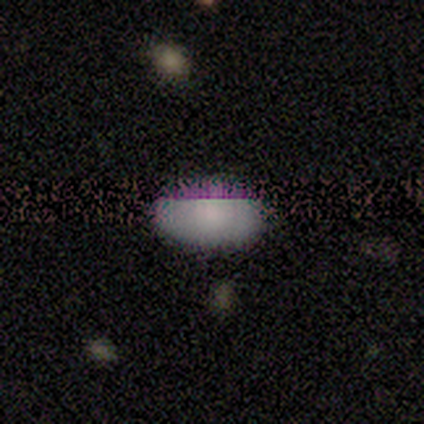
Smooth or featured?
  - smooth: 64% *
  - star or artifact: 23%
  - featured or disk: 13%
How rounded?
  - in between: 92% *
  - round: 4%
  - cigar-shaped: 4%
Merging?
  - none: 77% *
  - minor disturbance: 20%
  - major disturbance: 3%
  - merger: 0%